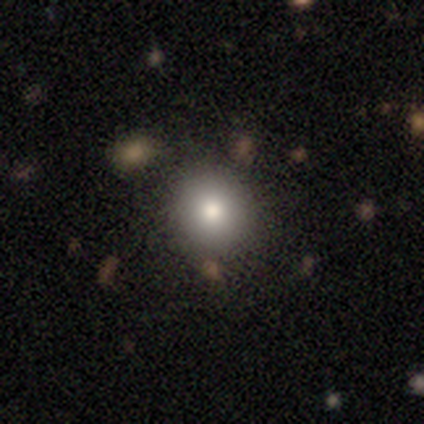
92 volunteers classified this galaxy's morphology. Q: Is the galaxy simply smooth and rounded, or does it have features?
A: smooth — 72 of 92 (78%).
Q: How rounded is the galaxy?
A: round — 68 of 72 (94%).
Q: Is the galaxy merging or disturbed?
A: none — 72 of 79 (91%).